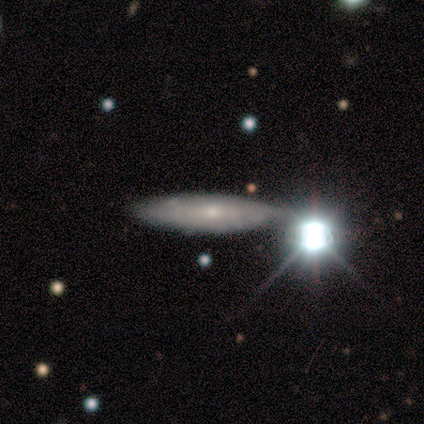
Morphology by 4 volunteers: smooth 50%, featured or disk 25%, star or artifact 25%. Down the decision tree: how rounded — cigar-shaped (100%); merging — minor disturbance (67%).